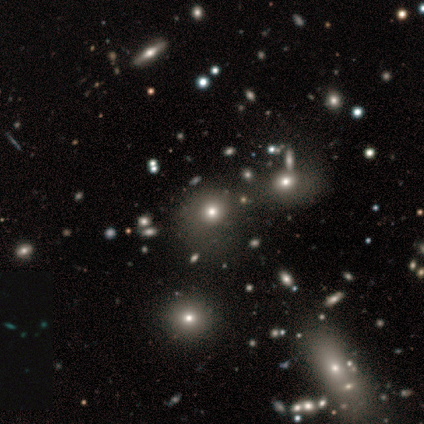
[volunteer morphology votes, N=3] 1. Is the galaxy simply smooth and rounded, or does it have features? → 67% star or artifact, 33% featured or disk, 0% smooth.